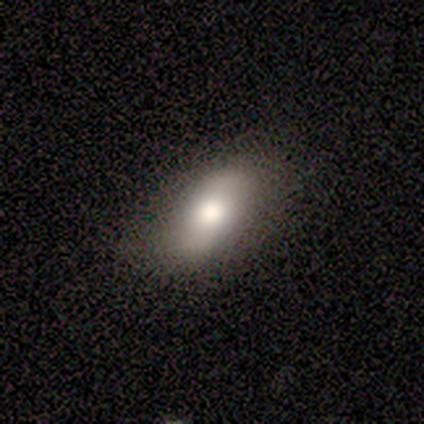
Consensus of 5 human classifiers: Volunteers were most divided on "how rounded": in between: 75%, round: 25%, cigar-shaped: 0%. More confident: smooth or featured — smooth (80%); merging — none (80%).